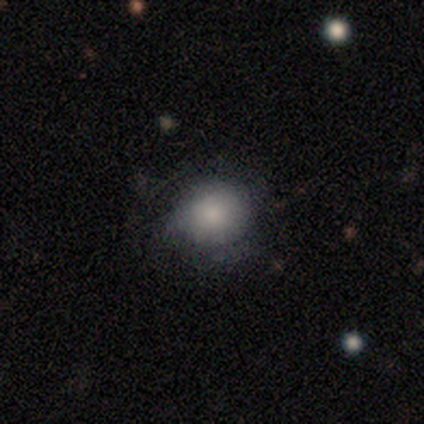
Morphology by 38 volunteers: Q: Smooth or featured?
A: smooth (68%); runner-up: featured or disk (24%)
Q: How rounded?
A: round (92%); runner-up: in between (8%)
Q: Merging?
A: none (63%); runner-up: minor disturbance (26%)